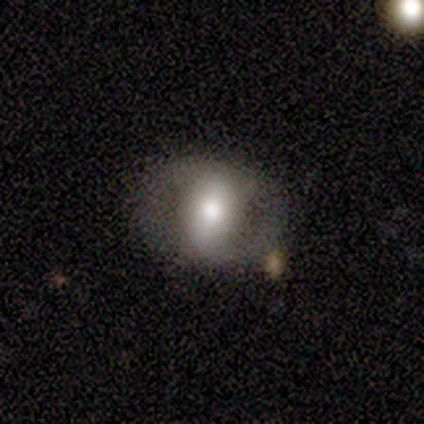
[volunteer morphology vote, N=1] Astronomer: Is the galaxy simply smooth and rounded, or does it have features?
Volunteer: star or artifact — 100%.